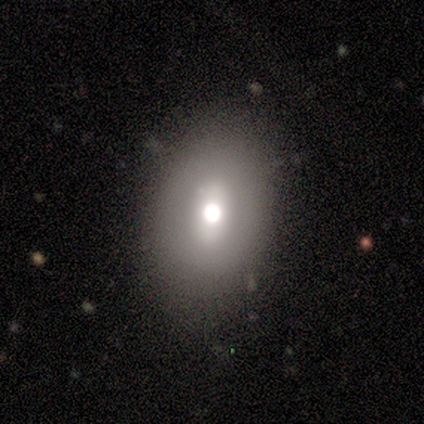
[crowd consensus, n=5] Q: Smooth or featured?
A: smooth (40%); tied with: featured or disk (40%)
Q: How rounded?
A: round (50%); tied with: in between (50%)
Q: Merging?
A: none (100%)